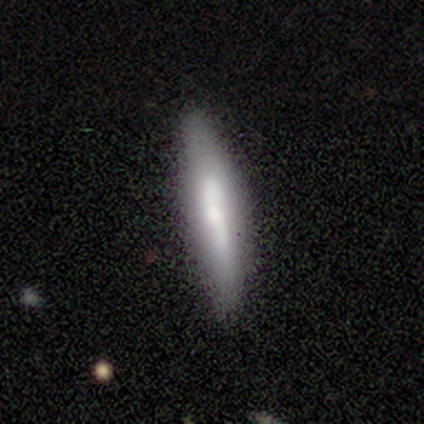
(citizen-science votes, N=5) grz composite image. It shows a smooth galaxy with no disk features (60%) that is cigar-shaped (100%). Merging: none (80%).